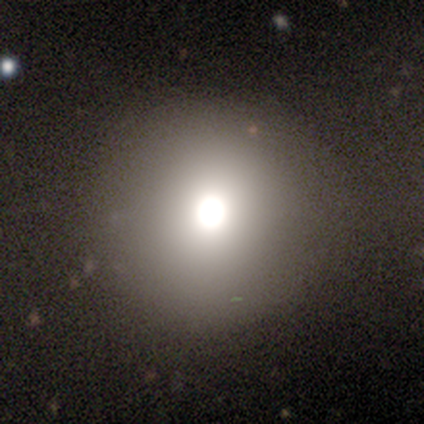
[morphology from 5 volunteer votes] A smooth galaxy with no disk features (80%) that is round (100%). Merging: none (100%).